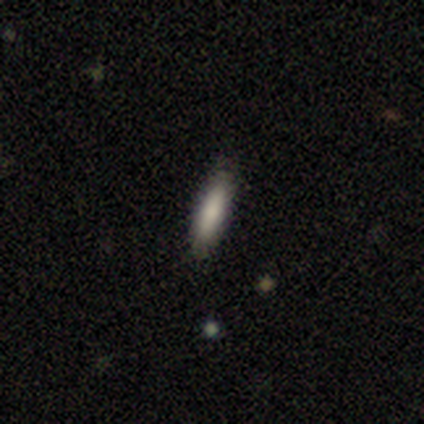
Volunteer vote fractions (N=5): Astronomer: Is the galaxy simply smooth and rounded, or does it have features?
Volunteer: smooth — 60%.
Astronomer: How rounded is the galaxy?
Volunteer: cigar-shaped — 67%.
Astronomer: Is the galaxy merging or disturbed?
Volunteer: none — 75%.